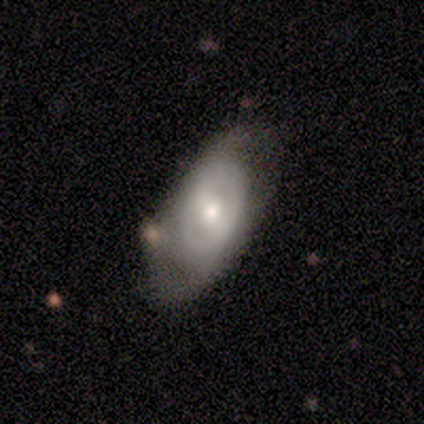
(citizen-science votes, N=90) A featured or disk galaxy (66%) with a weak bar (42%), 2 (73%) tight (47%) spiral arms (51%) and a moderate central bulge (58%). Merging: none (54%).